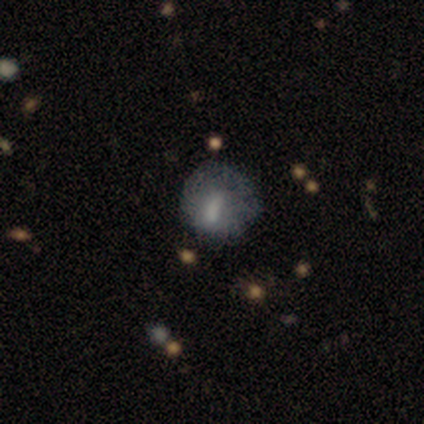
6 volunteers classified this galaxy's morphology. smooth 50%, featured or disk 33%, star or artifact 17%. Down the decision tree: how rounded — round (67%); merging — none (80%).